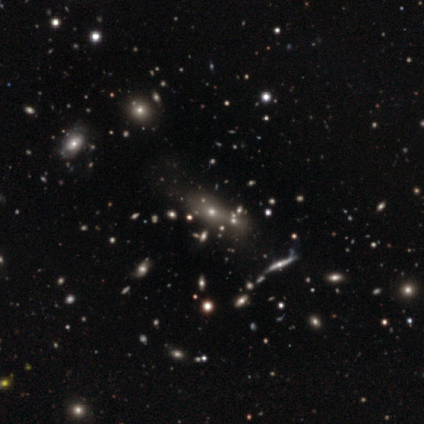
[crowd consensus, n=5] A featured or disk galaxy (60%) with no bar (100%), no spiral arms (100%) and a moderate central bulge (67%). Merging: merger (60%).